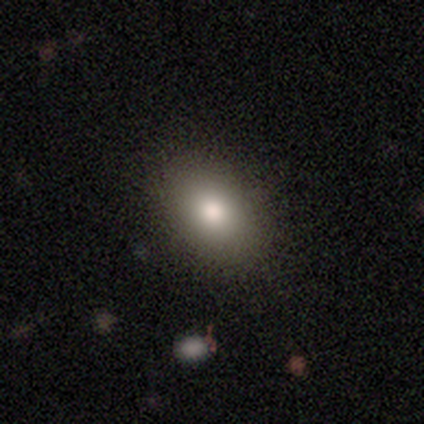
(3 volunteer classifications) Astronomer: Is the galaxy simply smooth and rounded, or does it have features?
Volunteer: smooth — 100%.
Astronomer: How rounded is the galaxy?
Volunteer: round — 67%.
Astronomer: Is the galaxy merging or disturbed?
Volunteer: none — 67%.